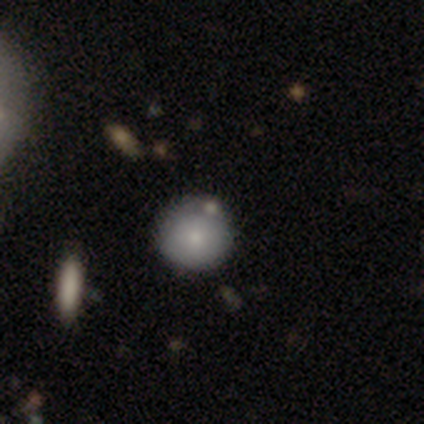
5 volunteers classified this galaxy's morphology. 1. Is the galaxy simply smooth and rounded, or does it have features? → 80% smooth, 20% star or artifact, 0% featured or disk.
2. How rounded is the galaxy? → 100% round, 0% in between, 0% cigar-shaped.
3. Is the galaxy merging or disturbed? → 75% none, 25% minor disturbance, 0% major disturbance, 0% merger.